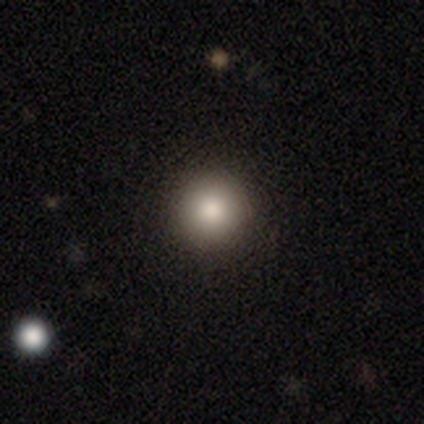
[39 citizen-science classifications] Smooth or featured? 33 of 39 (85%) said smooth. How rounded? 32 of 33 (97%) said round. Merging? 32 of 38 (84%) said none.